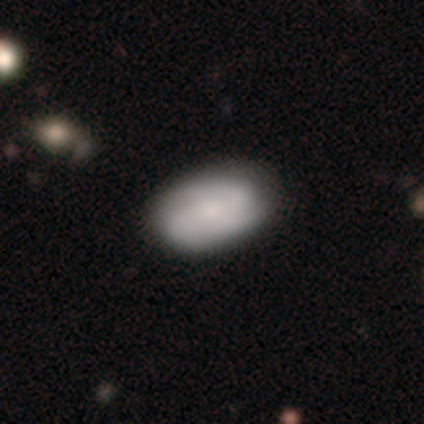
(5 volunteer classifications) smooth-or-featured: smooth: 80% | featured or disk: 20% | star or artifact: 0%
  how-rounded: in between: 100% | round: 0% | cigar-shaped: 0%
  merging: none: 60% | minor disturbance: 40% | major disturbance: 0% | merger: 0%